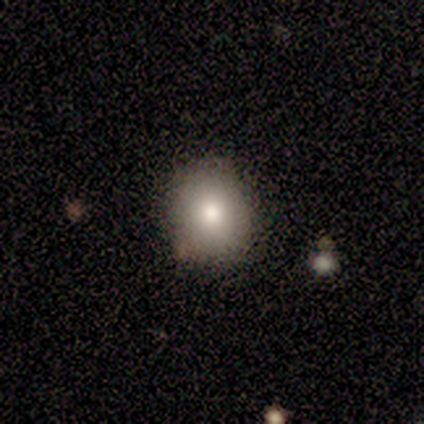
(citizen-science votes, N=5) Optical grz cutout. It shows a smooth galaxy with no disk features (100%) that is round (60%). Merging: none (100%).